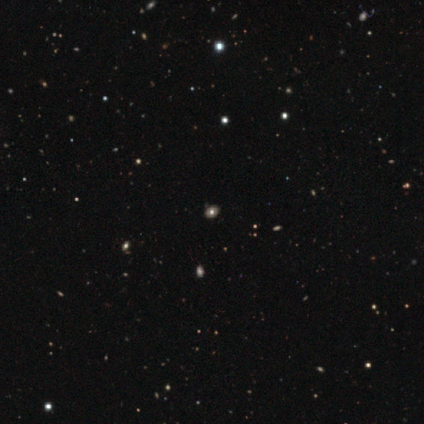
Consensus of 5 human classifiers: Smooth or featured? star or artifact (60%)